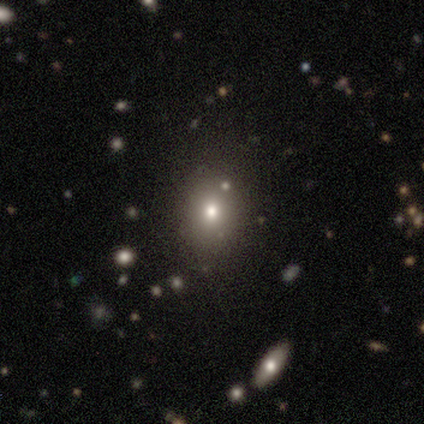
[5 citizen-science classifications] Smooth or featured? smooth (60%)
How rounded? in between (100%)
Merging? none (100%)